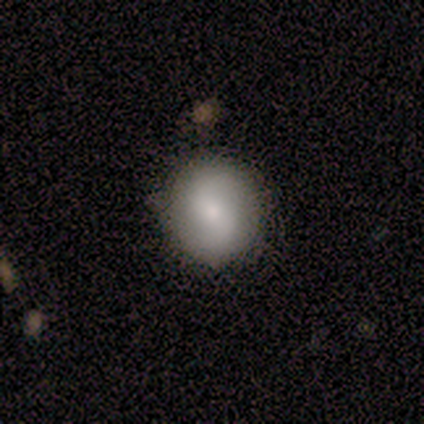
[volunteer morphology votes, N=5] Overall: smooth (60%; featured or disk 40%). How rounded: round (100%). Merging: none (100%).